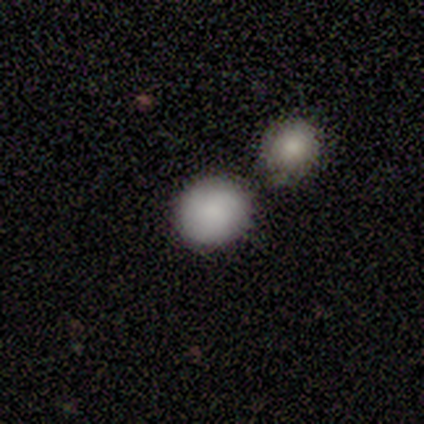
This appears to be a smooth galaxy with no disk features (86%) that is round (83%). Merging: none (71%).